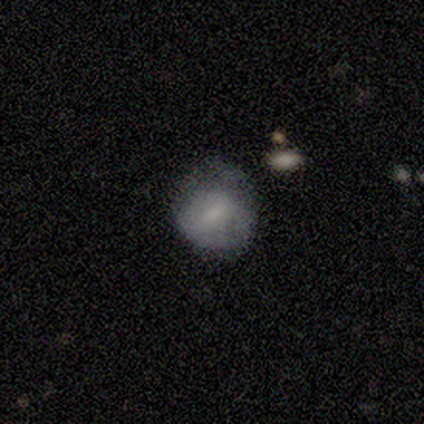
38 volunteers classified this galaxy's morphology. Smooth or featured? 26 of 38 (68%) said smooth. How rounded? 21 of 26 (81%) said round. Merging? 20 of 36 (56%) said none.